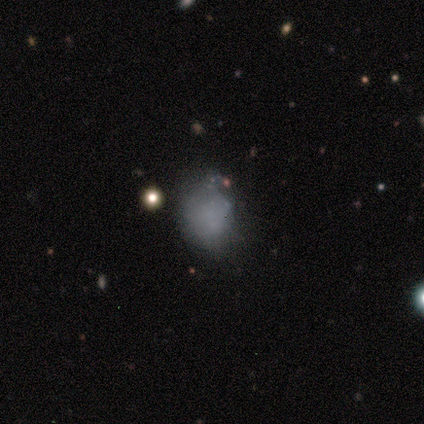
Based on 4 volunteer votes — This appears to be a smooth galaxy with no disk features (100%) that is in between round and cigar-shaped (100%). Merging: none (50%).